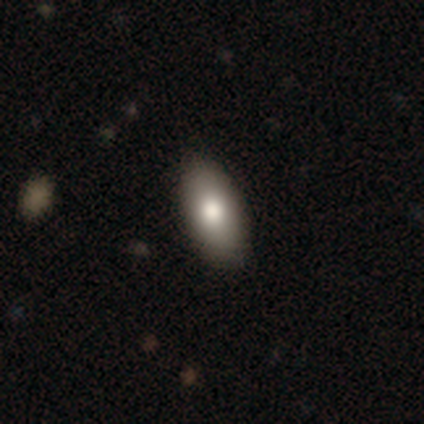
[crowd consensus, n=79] smooth 82%, featured or disk 15%, star or artifact 3%. Down the decision tree: how rounded — in between (92%); merging — none (44%).